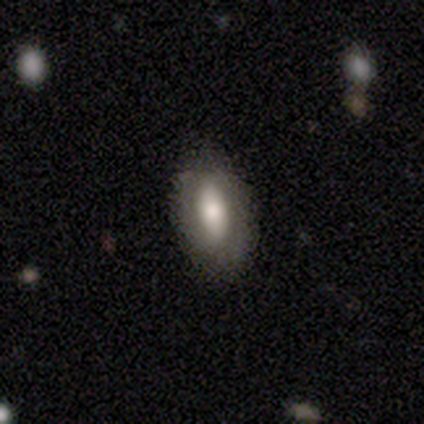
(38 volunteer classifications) This appears to be a smooth galaxy with no disk features (66%) that is in between round and cigar-shaped (92%). Merging: none (89%).